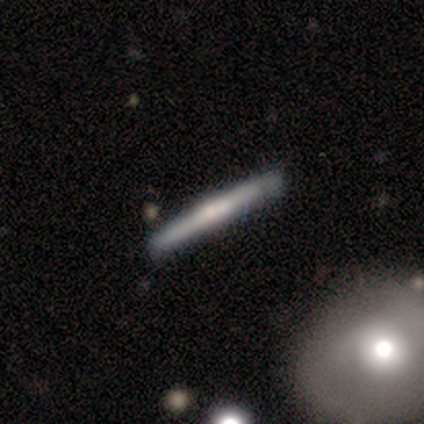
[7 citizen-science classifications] This is clearly a featured or disk galaxy (86%). It is clearly viewed edge-on (100%). Edge-on bulge: clearly rounded (100%). Merging: possibly none (57%).